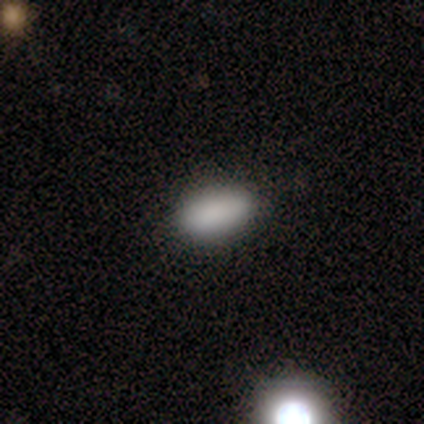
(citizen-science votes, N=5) A smooth galaxy with no disk features (80%) that is in between round and cigar-shaped (100%).

Vote fractions:
- Smooth or featured? smooth: 80% / star or artifact: 20% / featured or disk: 0%
- How rounded? in between: 100% / round: 0% / cigar-shaped: 0%
- Merging? none: 75% / minor disturbance: 25% / major disturbance: 0% / merger: 0%